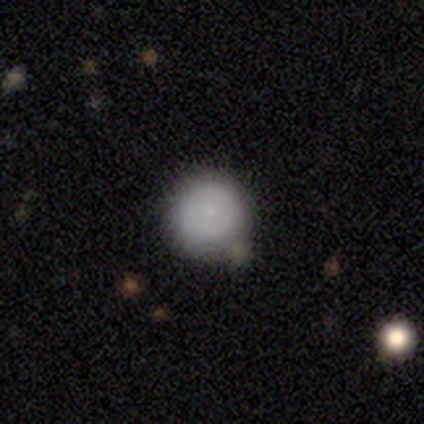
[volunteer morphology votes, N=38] Q: Smooth or featured?
A: smooth (82%); runner-up: featured or disk (11%)
Q: How rounded?
A: round (97%); runner-up: in between (3%)
Q: Merging?
A: none (60%); runner-up: minor disturbance (26%)